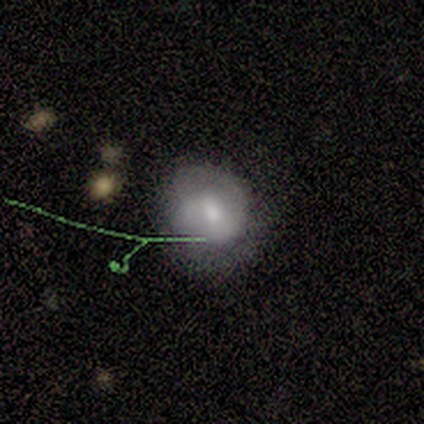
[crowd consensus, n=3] smooth_or_featured: smooth (p=0.67) [alt: featured or disk p=0.33]
how_rounded: round (p=1.00)
merging: none (p=0.67) [alt: minor disturbance p=0.33]